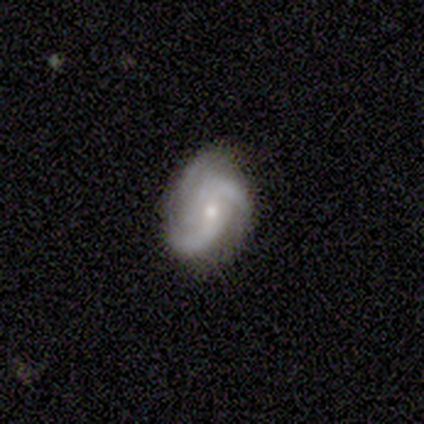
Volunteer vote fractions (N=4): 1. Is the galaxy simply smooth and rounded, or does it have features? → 100% featured or disk, 0% smooth, 0% star or artifact.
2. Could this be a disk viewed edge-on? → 100% no, 0% yes.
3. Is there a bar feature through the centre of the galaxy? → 50% no, 25% strong, 25% weak.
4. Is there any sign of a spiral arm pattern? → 100% yes, 0% no.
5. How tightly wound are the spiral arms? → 75% medium, 25% loose, 0% tight.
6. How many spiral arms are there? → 75% 2, 25% 3, 0% 1, 0% 4, 0% more than 4, 0% can't tell.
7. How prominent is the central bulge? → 75% small, 25% moderate, 0% dominant, 0% large, 0% none.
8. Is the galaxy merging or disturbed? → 100% none, 0% minor disturbance, 0% major disturbance, 0% merger.